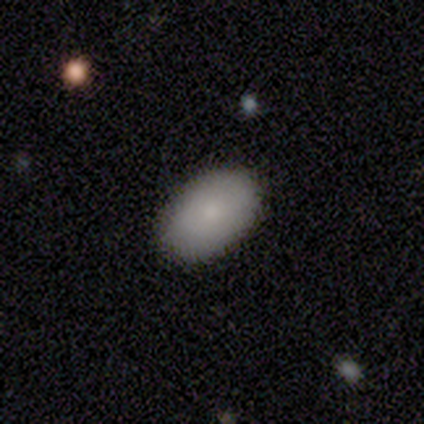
Smooth or featured? 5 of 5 (100%) said smooth. How rounded? 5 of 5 (100%) said in between. Merging? 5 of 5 (100%) said none.